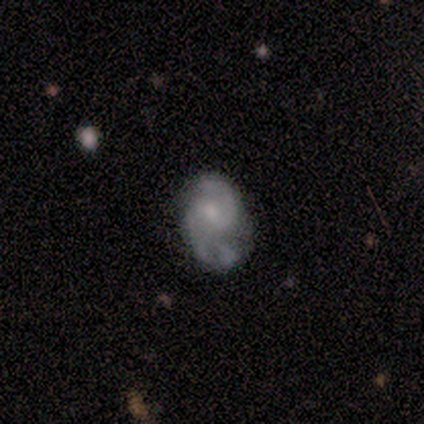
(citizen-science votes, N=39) smooth-or-featured: featured or disk: 69% | smooth: 28% | star or artifact: 3%
  disk-edge-on: no: 100% | yes: 0%
    bar: no: 67% | weak: 26% | strong: 7%
    has-spiral-arms: yes: 85% | no: 15%
      spiral-winding: medium: 78% | loose: 13% | tight: 9%
      spiral-arm-count: 2: 78% | 3: 9% | can't tell: 9% | 4: 4% | 1: 0% | more than 4: 0%
    bulge-size: small: 44% | moderate: 37% | none: 15% | large: 4% | dominant: 0%
  merging: none: 47% | minor disturbance: 32% | major disturbance: 13% | merger: 8%